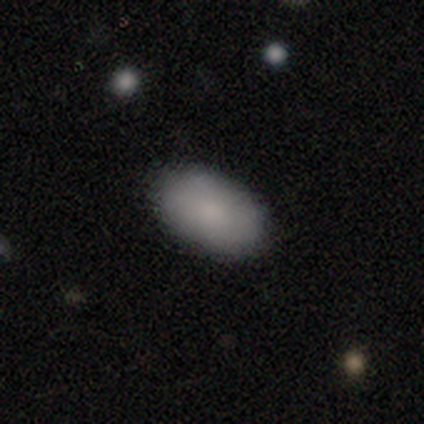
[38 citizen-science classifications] A smooth galaxy with no disk features (89%) that is in between round and cigar-shaped (91%).

Vote fractions:
- Smooth or featured? smooth: 89% / featured or disk: 8% / star or artifact: 3%
- How rounded? in between: 91% / round: 9% / cigar-shaped: 0%
- Merging? none: 81% / minor disturbance: 11% / major disturbance: 5% / merger: 3%